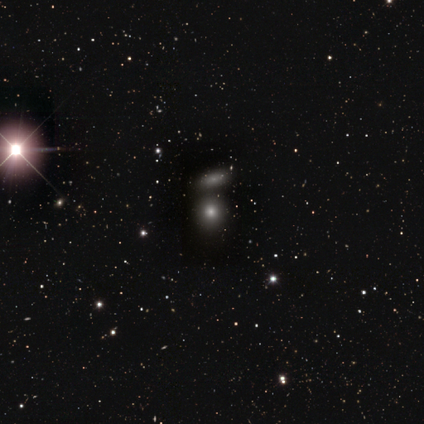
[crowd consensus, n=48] A smooth galaxy with no disk features (67%) that is round (94%). Merging: none (67%).